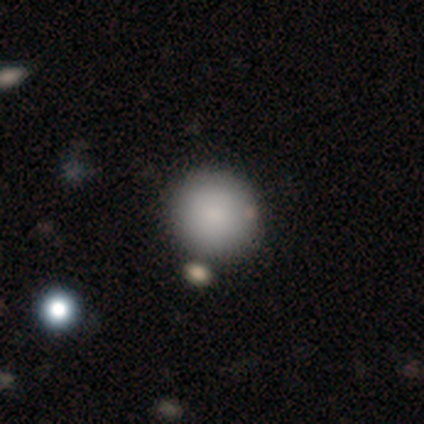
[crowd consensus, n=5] This appears to be a smooth galaxy with no disk features (80%) that is round (100%). Merging: none (40%, tied with merger).